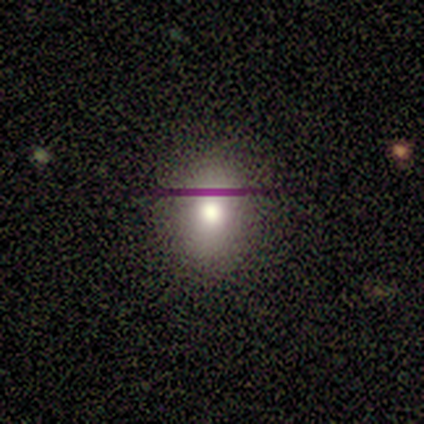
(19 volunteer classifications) Overall: smooth (84%). How rounded: in between (69%; round 31%). Merging: none (88%).